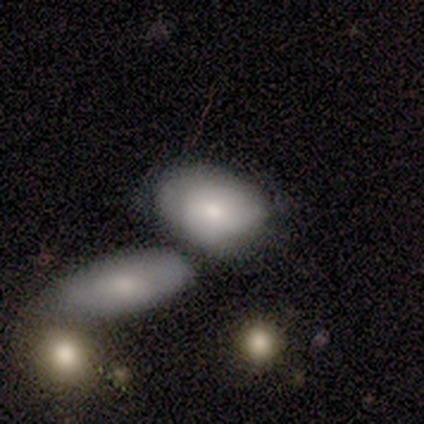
Volunteers were most divided on "bulge size" (3-way tie): large: 33%, moderate: 33%, small: 33%, dominant: 0%, none: 0%; "merging" (2-way tie): minor disturbance: 40%, merger: 40%, none: 20%, major disturbance: 0%. More confident: edge-on disk — no (100%); bar — no (67%); spiral arms — no (67%); smooth or featured — featured or disk (60%).